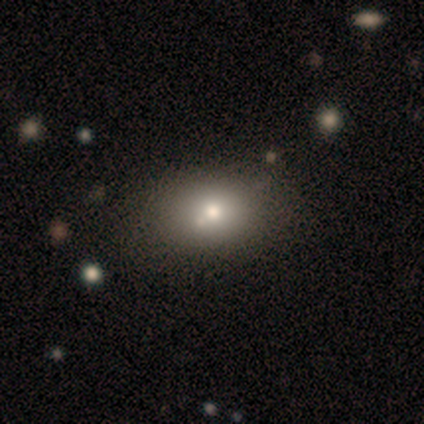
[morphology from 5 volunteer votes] smooth_or_featured: smooth (p=1.00)
how_rounded: in between (p=0.80) [alt: round p=0.20]
merging: none (p=0.80) [alt: merger p=0.20]